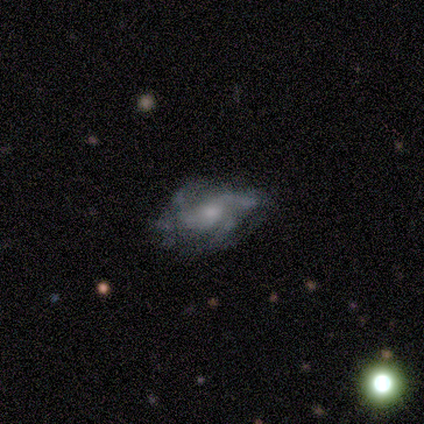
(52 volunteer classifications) A featured or disk galaxy (71%) with no bar (76%), 3 (29%, tied with can't tell) loose (39%) spiral arms (85%) and a small central bulge (58%). Merging: none (60%).